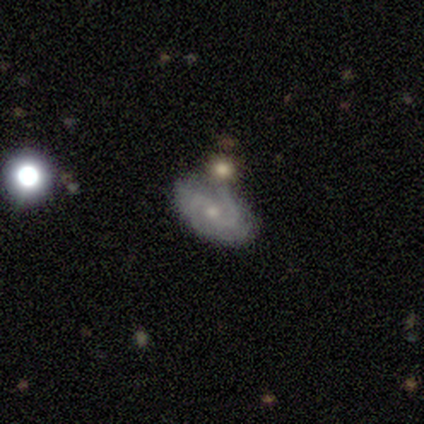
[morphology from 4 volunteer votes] This is possibly a smooth galaxy (50%, tied with featured or disk). How rounded: possibly round (50%, tied with in between). Merging: possibly none (50%).